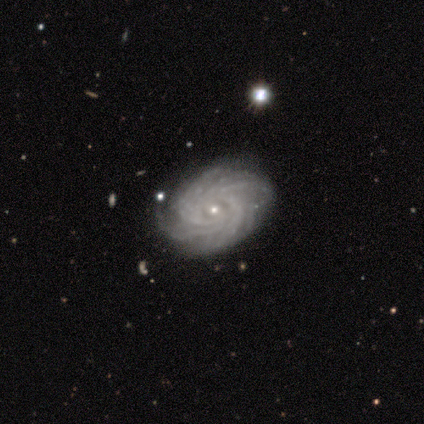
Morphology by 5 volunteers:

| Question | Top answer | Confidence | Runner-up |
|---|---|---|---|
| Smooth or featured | featured or disk | 60% | star or artifact (40%) |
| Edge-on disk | no | 67% | yes (33%) |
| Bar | weak | 100% | — |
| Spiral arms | yes | 100% | — |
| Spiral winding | tight | 100% | — |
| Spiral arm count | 3 | 50% | tied: more than 4 (50%) |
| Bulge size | small | 100% | — |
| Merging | minor disturbance | 67% | none (33%) |